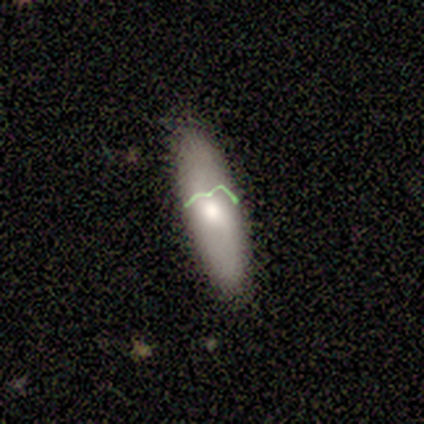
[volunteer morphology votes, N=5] smooth 60%, featured or disk 40%, star or artifact 0%. Down the decision tree: how rounded — in between (67%); merging — none (60%).